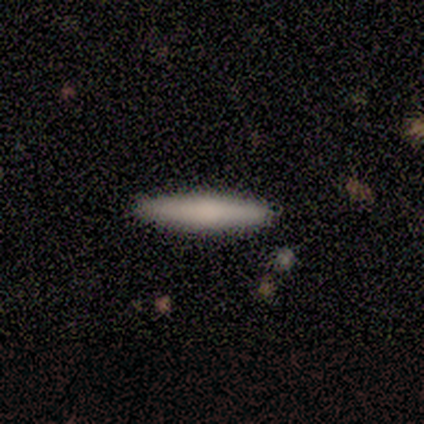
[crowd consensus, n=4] Morphology: type=smooth (75%); roundness=cigar-shaped (67%); merging=none (100%).